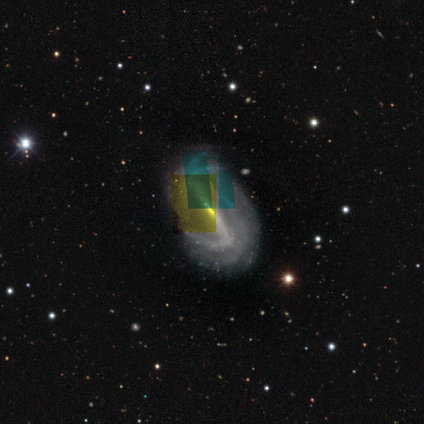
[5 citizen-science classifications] A featured or disk galaxy (80%) with a strong bar (100%), 2 (25%, tied with 4, more than 4 and can't tell) medium (50%) spiral arms (100%) and a small central bulge (75%). Merging: none (75%).